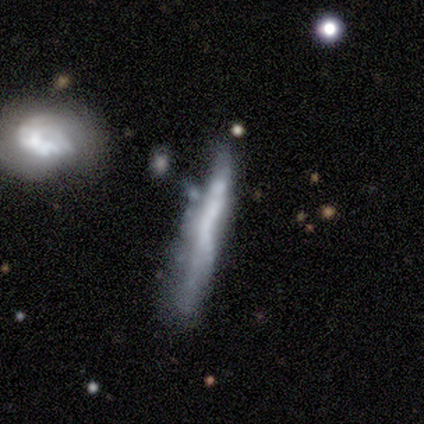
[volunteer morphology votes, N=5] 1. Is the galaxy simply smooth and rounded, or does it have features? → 60% smooth, 40% featured or disk, 0% star or artifact.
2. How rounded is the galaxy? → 100% cigar-shaped, 0% round, 0% in between.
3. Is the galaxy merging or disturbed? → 40% none (tied), 40% minor disturbance (tied), 20% merger, 0% major disturbance.